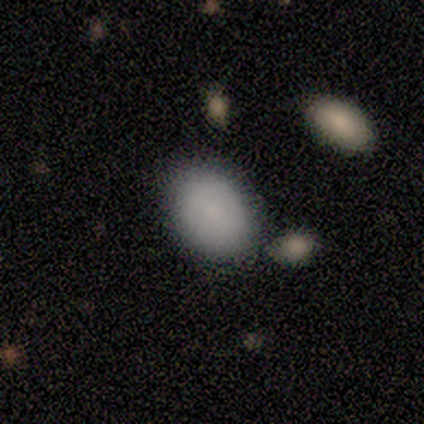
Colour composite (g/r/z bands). It shows a smooth galaxy with no disk features (100%) that is in between round and cigar-shaped (100%). Merging: none (83%).